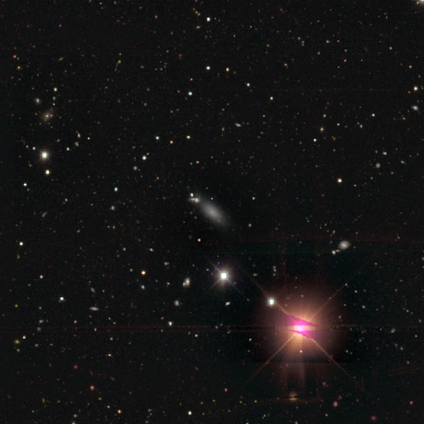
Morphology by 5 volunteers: Smooth or featured? 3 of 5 (60%) said star or artifact.